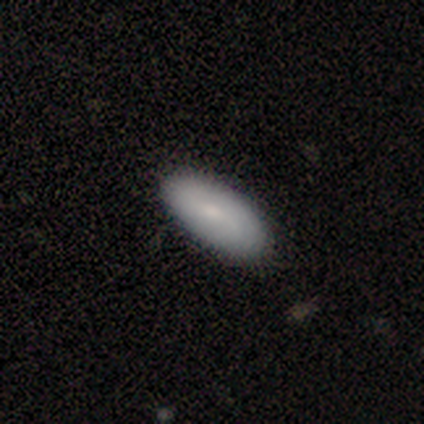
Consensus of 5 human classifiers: A smooth galaxy with no disk features (80%) that is in between round and cigar-shaped (75%). Merging: none (80%).